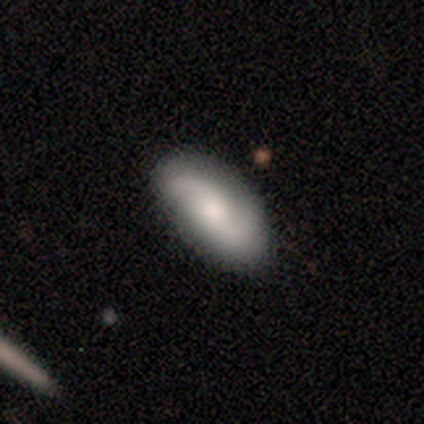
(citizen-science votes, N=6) Smooth or featured: smooth — 50% (tied with featured or disk — 50%)
How rounded: in between — 100%
Merging: none — 67% (minor disturbance — 17%)